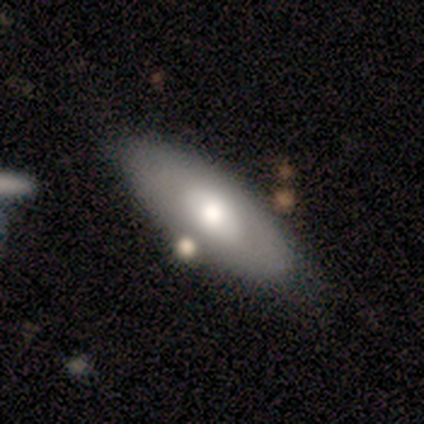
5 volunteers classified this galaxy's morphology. This appears to be a smooth galaxy with no disk features (100%) that is in between round and cigar-shaped (100%). Merging: none (60%).